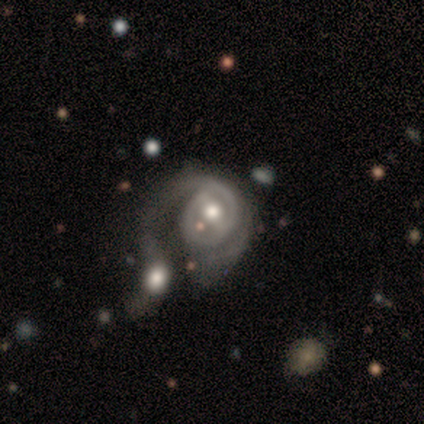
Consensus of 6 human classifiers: A featured or disk galaxy (100%) with a weak bar (50%), 2 (100%) medium (100%) spiral arms (50%, tied with no) and a moderate central bulge (100%).

Vote fractions:
- Smooth or featured? featured or disk: 100% / smooth: 0% / star or artifact: 0%
- Edge-on disk? no: 100% / yes: 0%
- Bar? weak: 50% / strong: 33% / no: 17%
- Spiral arms? yes: 50% (tied) / no: 50% (tied)
- Spiral winding? medium: 100% / tight: 0% / loose: 0%
- Spiral arm count? 2: 100% / 1: 0% / 3: 0% / 4: 0% / more than 4: 0% / can't tell: 0%
- Bulge size? moderate: 100% / dominant: 0% / large: 0% / small: 0% / none: 0%
- Merging? merger: 83% / major disturbance: 17% / none: 0% / minor disturbance: 0%